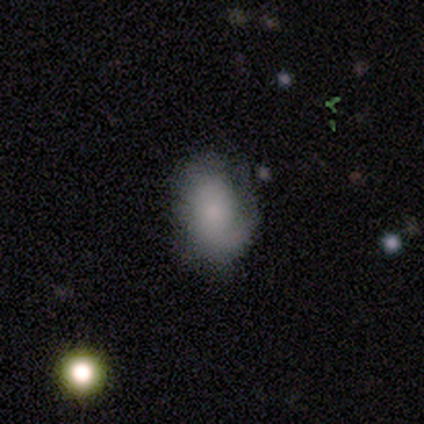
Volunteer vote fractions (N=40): This is likely a smooth galaxy (65%). How rounded: clearly in between (81%). Merging: likely none (66%).